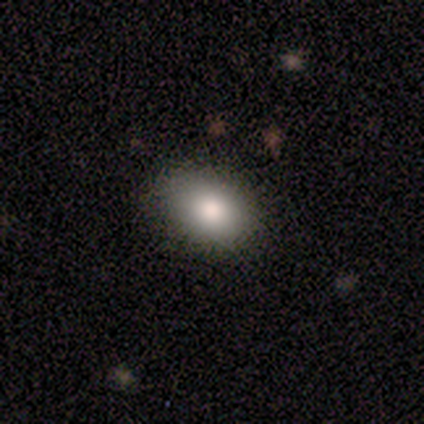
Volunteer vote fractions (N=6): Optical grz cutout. It shows a smooth galaxy with no disk features (83%) that is in between round and cigar-shaped (60%). Merging: none (100%).